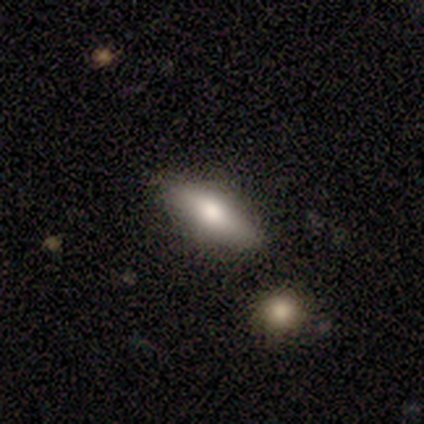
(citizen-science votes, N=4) Morphology: type=smooth (75%); roundness=cigar-shaped (67%); merging=none (100%).